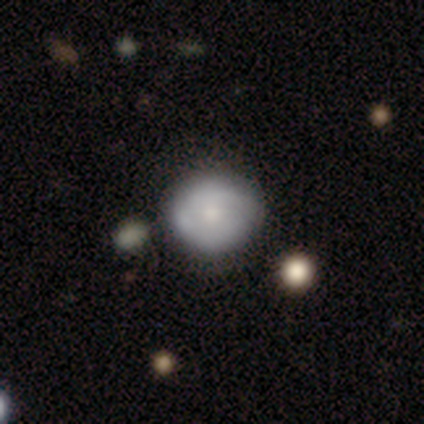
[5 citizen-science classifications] Q: Smooth or featured?
A: featured or disk (80%); runner-up: smooth (20%)
Q: Edge-on disk?
A: no (100%)
Q: Bar?
A: no (100%)
Q: Spiral arms?
A: no (75%); runner-up: yes (25%)
Q: Bulge size?
A: moderate (50%); tied with: small (50%)
Q: Merging?
A: none (80%); runner-up: merger (20%)